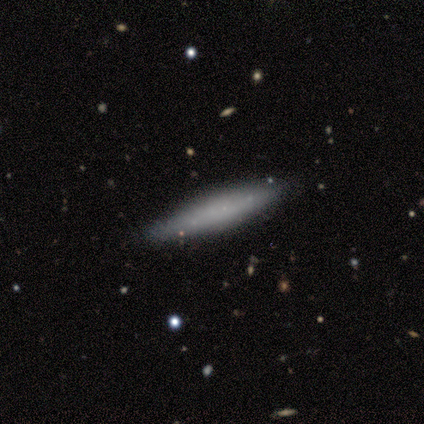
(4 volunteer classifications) smooth_or_featured: smooth (p=0.50) [tied with: featured or disk p=0.50]
how_rounded: cigar-shaped (p=1.00)
merging: none (p=0.75) [alt: minor disturbance p=0.25]